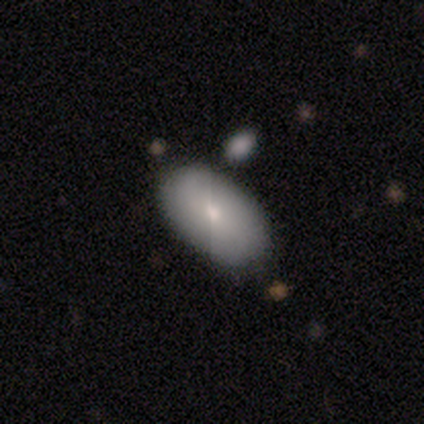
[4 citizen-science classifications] This is possibly a featured or disk galaxy (50%). It is clearly not viewed edge-on (100%). Bar: clearly no (100%). Spiral arm pattern: clearly no (100%). Central bulge: clearly moderate (100%). Merging: likely minor disturbance (67%).